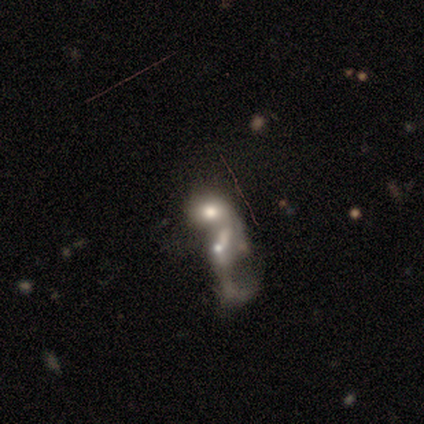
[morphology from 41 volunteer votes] Volunteers were most divided on "smooth or featured": featured or disk: 54%, smooth: 39%, star or artifact: 7%. Remaining: edge-on disk — no (91%); spiral arms — no (85%); bar — no (80%); merging — merger (79%); bulge size — moderate (40%).